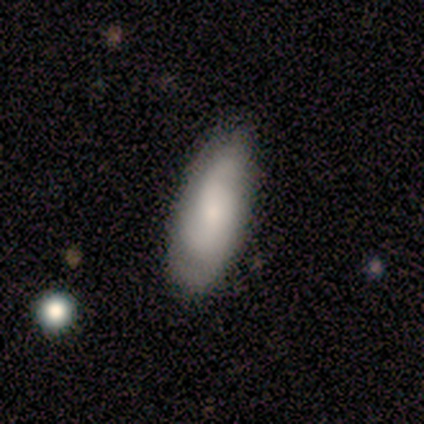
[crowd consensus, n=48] Smooth or featured? featured or disk (48%)
Edge-on disk? no (96%)
Bar? no (68%)
Spiral arms? yes (82%)
Spiral winding? medium (44%)
Spiral arm count? 2 (78%)
Bulge size? moderate (50%)
Merging? none (76%)